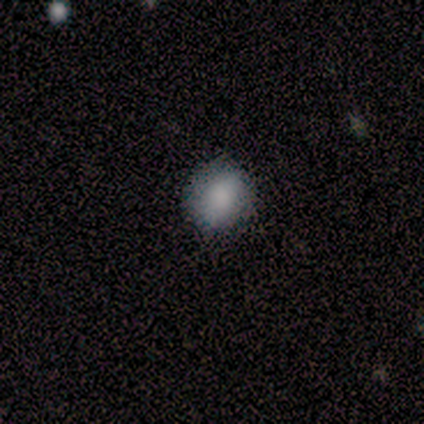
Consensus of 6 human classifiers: Overall: smooth (67%; star or artifact 33%). How rounded: round (50%, tied with in between). Merging: none (75%).